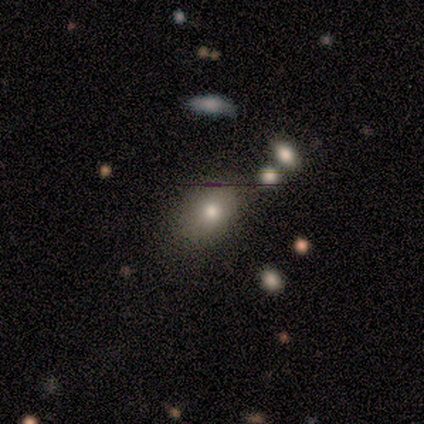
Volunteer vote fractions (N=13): Smooth or featured?
  - smooth: 62% *
  - star or artifact: 23%
  - featured or disk: 15%
How rounded?
  - in between: 62% *
  - round: 38%
  - cigar-shaped: 0%
Merging?
  - none: 90% *
  - minor disturbance: 10%
  - major disturbance: 0%
  - merger: 0%